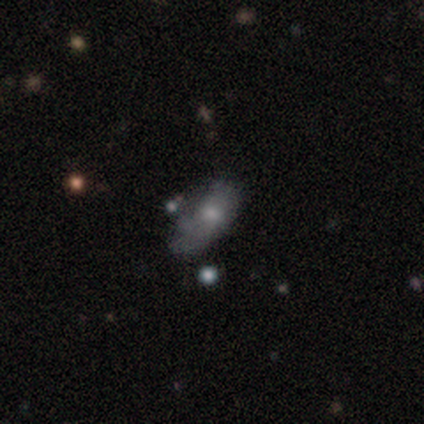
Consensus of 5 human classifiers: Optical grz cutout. It shows a smooth galaxy with no disk features (100%) that is in between round and cigar-shaped (100%). Merging: minor disturbance (60%).